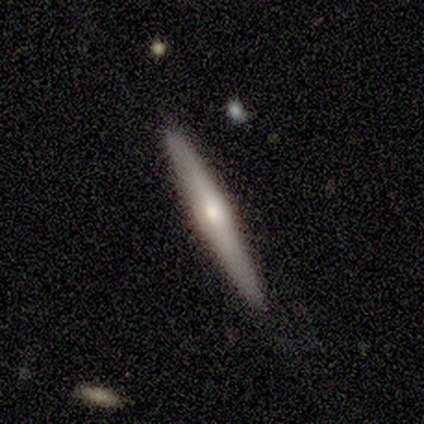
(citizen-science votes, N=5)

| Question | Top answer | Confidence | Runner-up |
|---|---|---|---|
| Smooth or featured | smooth | 60% | featured or disk (20%) |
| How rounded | cigar-shaped | 100% | — |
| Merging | none | 75% | minor disturbance (25%) |